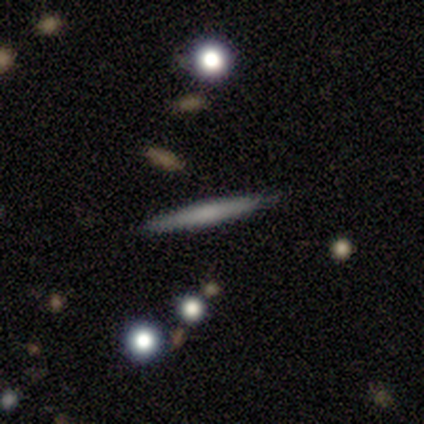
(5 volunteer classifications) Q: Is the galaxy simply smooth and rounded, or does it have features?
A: featured or disk — 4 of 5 (80%).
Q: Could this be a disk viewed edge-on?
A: yes — 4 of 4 (100%).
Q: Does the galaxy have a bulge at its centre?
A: rounded — 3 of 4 (75%).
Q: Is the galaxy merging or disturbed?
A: none — 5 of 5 (100%).